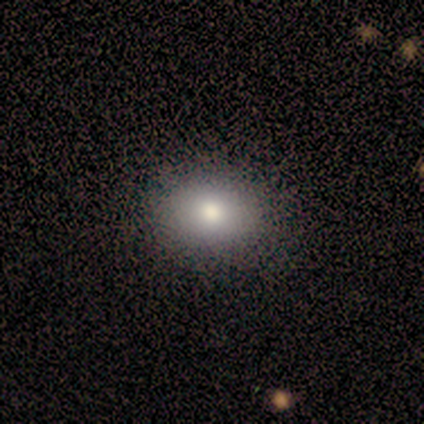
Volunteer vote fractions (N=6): This appears to be a smooth galaxy with no disk features (100%) that is in between round and cigar-shaped (100%). Merging: none (83%).